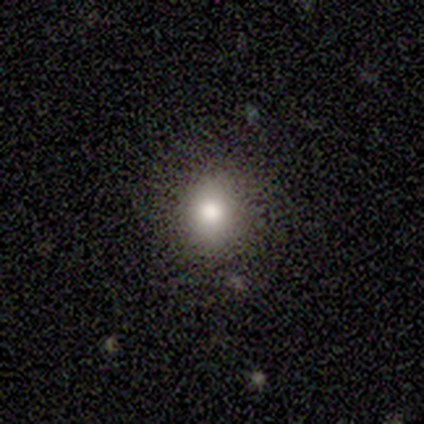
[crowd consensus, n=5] Smooth or featured: smooth — 100%
How rounded: round — 100%
Merging: none — 80% (major disturbance — 20%)